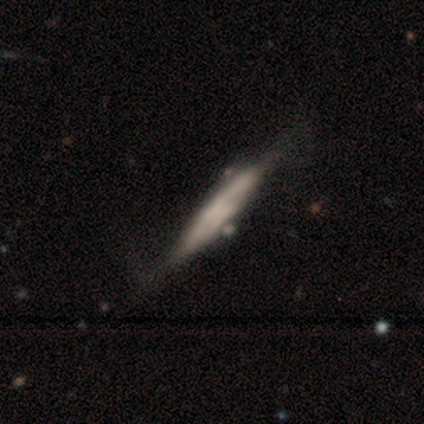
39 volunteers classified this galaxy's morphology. Q: Smooth or featured?
A: featured or disk (54%); runner-up: smooth (46%)
Q: Edge-on disk?
A: yes (81%); runner-up: no (19%)
Q: Edge-on bulge?
A: none (53%); runner-up: boxy (41%)
Q: Merging?
A: minor disturbance (28%); runner-up: none (26%)